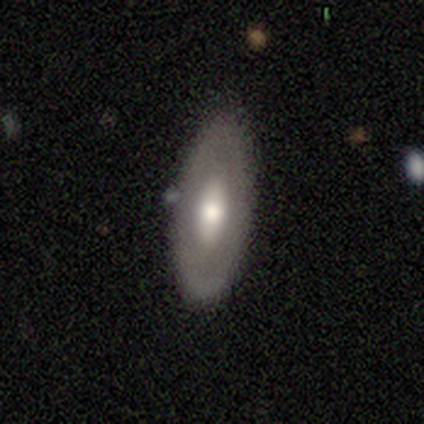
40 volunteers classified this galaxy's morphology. This appears to be a smooth galaxy with no disk features (50%) that is in between round and cigar-shaped (85%). Merging: none (79%).